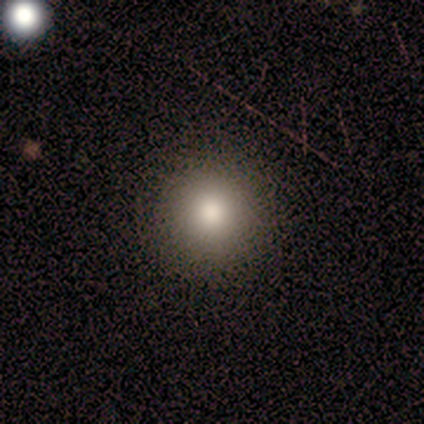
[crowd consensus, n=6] This appears to be a smooth galaxy with no disk features (100%) that is round (100%). Merging: none (100%).